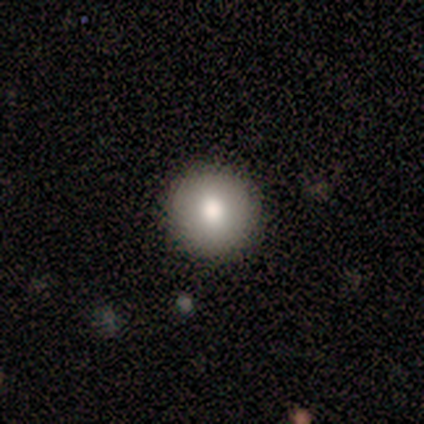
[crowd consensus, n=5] A smooth galaxy with no disk features (80%) that is round (100%). Merging: none (100%).